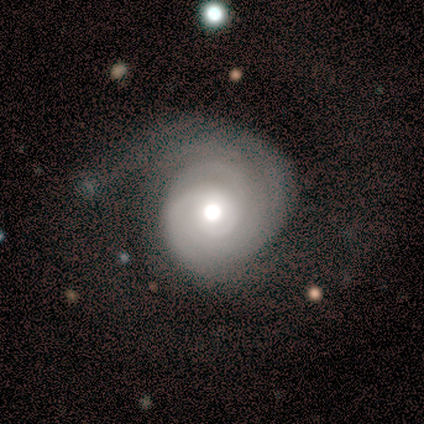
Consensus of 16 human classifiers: Volunteers were most divided on "merging": none: 50%, major disturbance: 31%, minor disturbance: 19%, merger: 0%. Remaining: edge-on disk — no (100%); spiral arms — yes (100%); smooth or featured — featured or disk (94%); bar — no (80%); spiral winding — tight (73%); bulge size — moderate (67%); spiral arm count — can't tell (40%).